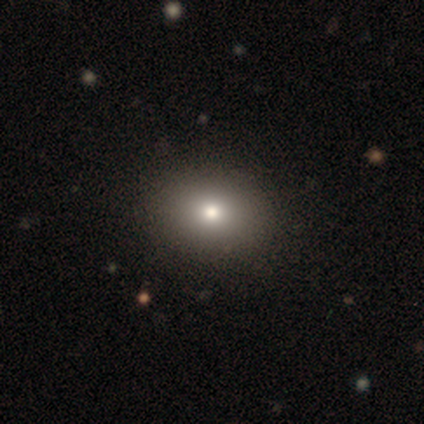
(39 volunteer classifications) smooth-or-featured: smooth: 87% | star or artifact: 8% | featured or disk: 5%
  how-rounded: in between: 53% | round: 47% | cigar-shaped: 0%
  merging: none: 75% | minor disturbance: 3% | major disturbance: 0% | merger: 0%